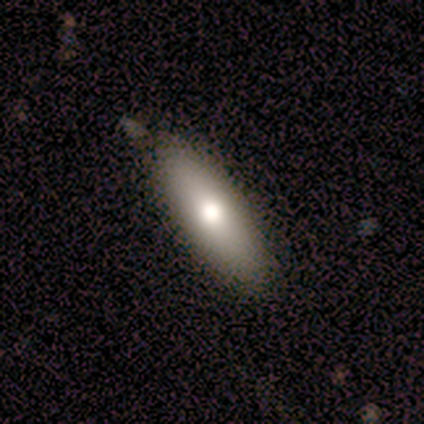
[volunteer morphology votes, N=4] This is possibly a smooth galaxy (50%, tied with featured or disk). How rounded: possibly in between (50%, tied with cigar-shaped). Merging: clearly none (100%).